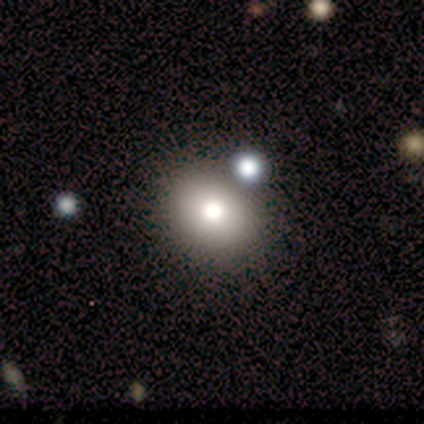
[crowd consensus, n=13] Morphology: type=smooth (69%); roundness=round (56%); merging=none (80%).